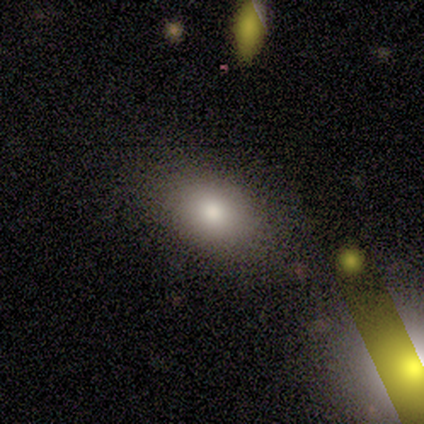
smooth_or_featured: smooth (p=0.80) [alt: featured or disk p=0.20]
how_rounded: in between (p=0.75) [alt: cigar-shaped p=0.25]
merging: none (p=0.80) [alt: merger p=0.20]